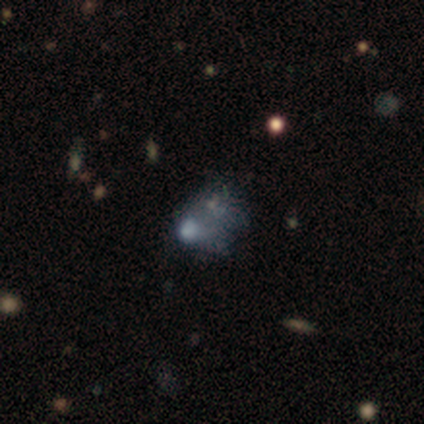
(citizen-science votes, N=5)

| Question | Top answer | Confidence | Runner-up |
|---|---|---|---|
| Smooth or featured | smooth | 60% | featured or disk (20%) |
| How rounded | in between | 100% | — |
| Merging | major disturbance | 100% | — |